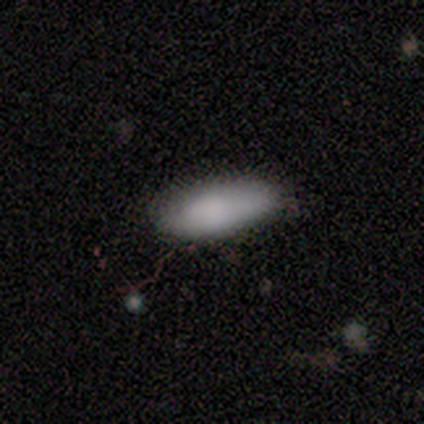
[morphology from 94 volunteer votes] smooth 82%, star or artifact 12%, featured or disk 6%. Down the decision tree: how rounded — in between (75%); merging — none (72%).